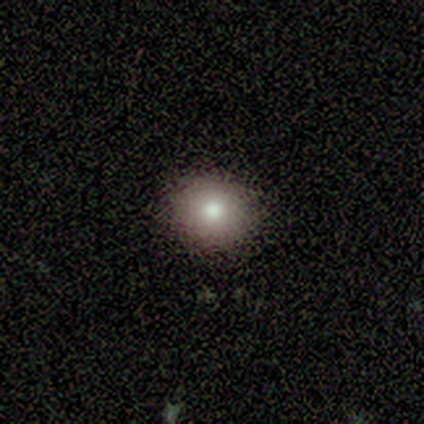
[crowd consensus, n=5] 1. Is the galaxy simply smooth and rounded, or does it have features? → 60% smooth, 20% featured or disk, 20% star or artifact.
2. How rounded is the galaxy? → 100% round, 0% in between, 0% cigar-shaped.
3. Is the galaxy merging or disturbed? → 75% none, 25% minor disturbance, 0% major disturbance, 0% merger.